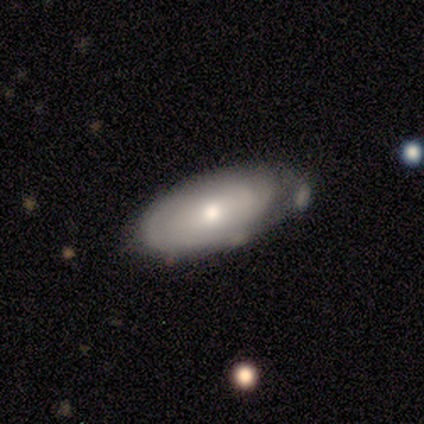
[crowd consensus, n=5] Smooth or featured?
  - featured or disk: 60% *
  - smooth: 40%
  - star or artifact: 0%
Edge-on disk?
  - no: 67% *
  - yes: 33%
Bar?
  - no: 100% *
  - strong: 0%
  - weak: 0%
Spiral arms?
  - yes: 50% * (tied)
  - no: 50% * (tied)
Spiral winding?
  - tight: 100% *
  - medium: 0%
  - loose: 0%
Spiral arm count?
  - can't tell: 100% *
  - 1: 0%
  - 2: 0%
  - 3: 0%
  - 4: 0%
  - more than 4: 0%
Bulge size?
  - moderate: 50% * (tied)
  - small: 50% * (tied)
  - dominant: 0%
  - large: 0%
  - none: 0%
Merging?
  - none: 60% *
  - minor disturbance: 40%
  - major disturbance: 0%
  - merger: 0%